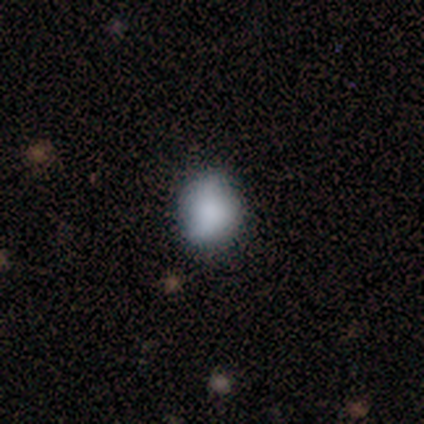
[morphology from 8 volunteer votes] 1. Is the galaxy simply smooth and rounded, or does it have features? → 75% smooth, 12% featured or disk, 12% star or artifact.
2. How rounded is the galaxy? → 67% round, 33% in between, 0% cigar-shaped.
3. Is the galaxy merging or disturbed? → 86% none, 14% minor disturbance, 0% major disturbance, 0% merger.